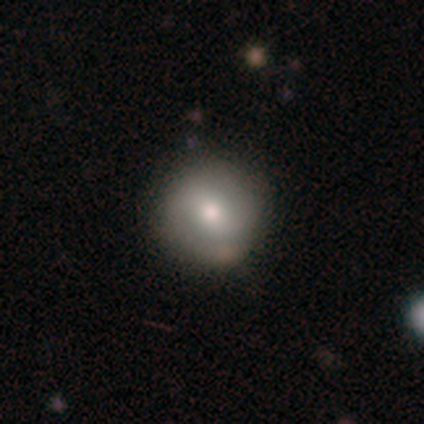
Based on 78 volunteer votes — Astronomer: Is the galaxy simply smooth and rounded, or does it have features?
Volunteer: smooth — 65%.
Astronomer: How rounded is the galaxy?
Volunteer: round — 98%.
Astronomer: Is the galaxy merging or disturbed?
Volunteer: none — 38%.